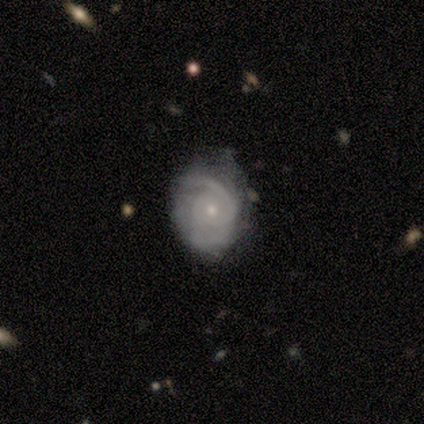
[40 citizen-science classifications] Smooth or featured? featured or disk (82%)
Edge-on disk? no (100%)
Bar? no (85%)
Spiral arms? yes (88%)
Spiral winding? tight (48%)
Spiral arm count? can't tell (38%)
Bulge size? small (79%)
Merging? none (59%)